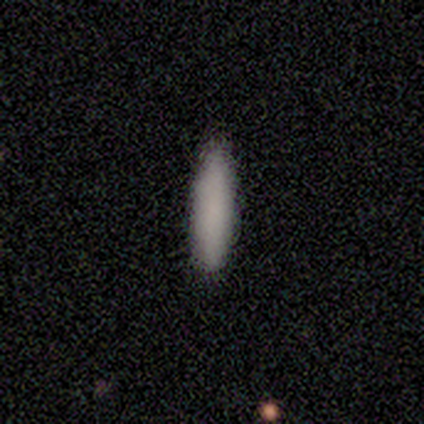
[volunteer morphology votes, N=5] Smooth or featured: smooth — 100%
How rounded: cigar-shaped — 80% (in between — 20%)
Merging: none — 100%